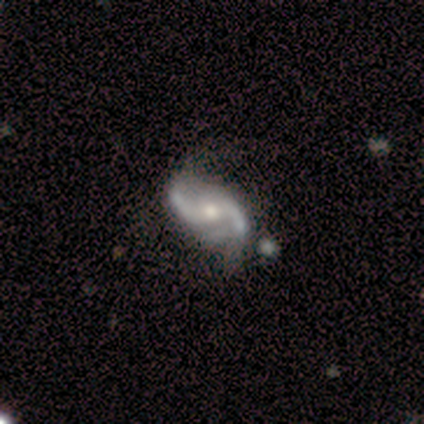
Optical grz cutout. It shows a featured or disk galaxy (80%) with a weak bar (75%), 2 (100%) medium (75%) spiral arms (100%) and a moderate central bulge (75%). Merging: none (60%).